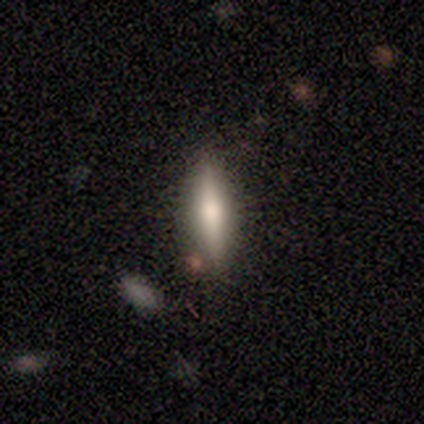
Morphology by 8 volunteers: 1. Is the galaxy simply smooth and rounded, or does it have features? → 62% smooth, 38% featured or disk, 0% star or artifact.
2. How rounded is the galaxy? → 80% cigar-shaped, 20% in between, 0% round.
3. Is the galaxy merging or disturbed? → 100% none, 0% minor disturbance, 0% major disturbance, 0% merger.